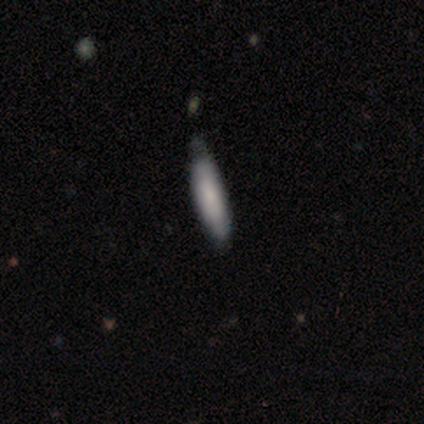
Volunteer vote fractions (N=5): Smooth or featured?
  - smooth: 80% *
  - featured or disk: 20%
  - star or artifact: 0%
How rounded?
  - cigar-shaped: 100% *
  - round: 0%
  - in between: 0%
Merging?
  - minor disturbance: 60% *
  - none: 20%
  - major disturbance: 20%
  - merger: 0%